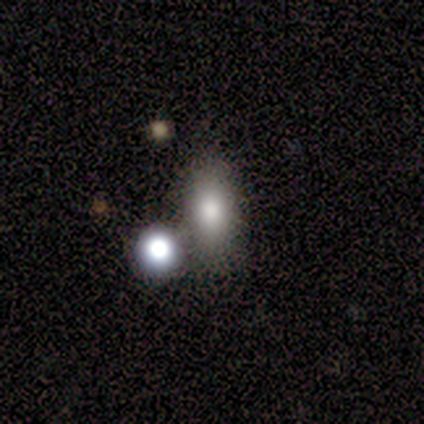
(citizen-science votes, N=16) Smooth or featured: smooth — 69% (featured or disk — 19%)
How rounded: in between — 82% (round — 9%)
Merging: none — 71% (minor disturbance — 21%)